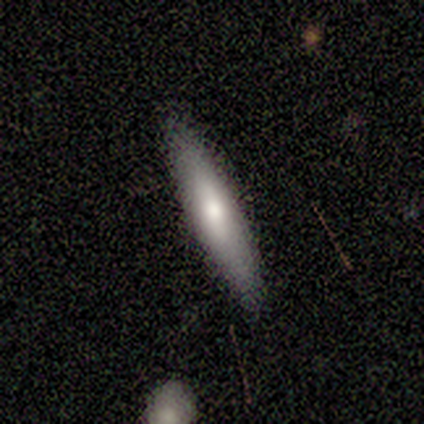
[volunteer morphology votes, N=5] This appears to be a featured or disk galaxy (60%) viewed edge-on (67%) with a boxy central bulge (50%, tied with rounded). Merging: none (75%).